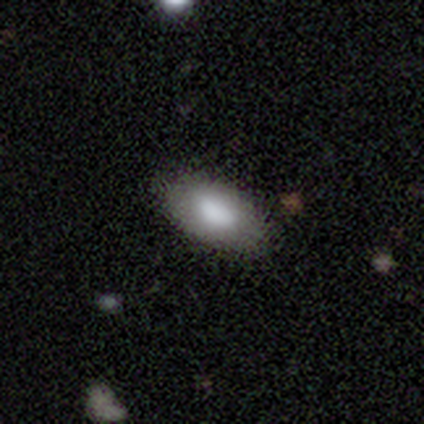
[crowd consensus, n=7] smooth_or_featured: smooth (p=0.86) [alt: featured or disk p=0.14]
how_rounded: in between (p=0.83) [alt: round p=0.17]
merging: none (p=0.71) [alt: minor disturbance p=0.29]